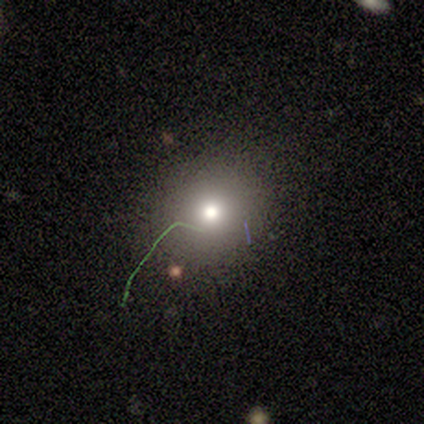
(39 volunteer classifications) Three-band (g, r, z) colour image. It shows a smooth galaxy with no disk features (77%) that is round (80%). Merging: none (82%).